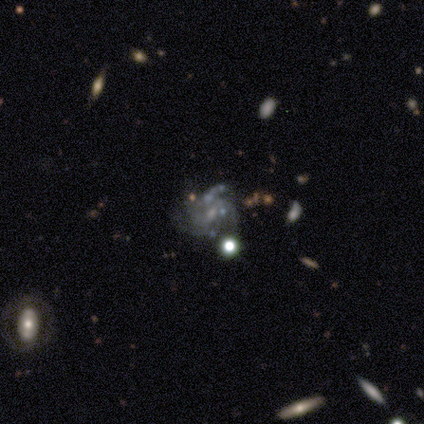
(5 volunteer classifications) Overall: featured or disk (60%; smooth 20%). Edge-on disk: no (67%; yes 33%). Bar: weak (50%, tied with no). Spiral arms: yes (100%). Spiral arm count: 3 (50%, tied with can't tell). Spiral winding: medium (100%). Bulge size: small (50%, tied with none). Merging: major disturbance (50%; none 25%).